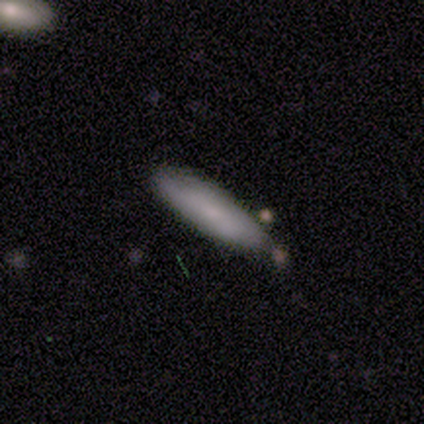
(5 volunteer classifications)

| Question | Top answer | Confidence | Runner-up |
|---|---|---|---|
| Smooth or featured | featured or disk | 60% | smooth (40%) |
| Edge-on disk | yes | 67% | no (33%) |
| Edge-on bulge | none | 50% | tied: rounded (50%) |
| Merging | none | 60% | minor disturbance (40%) |